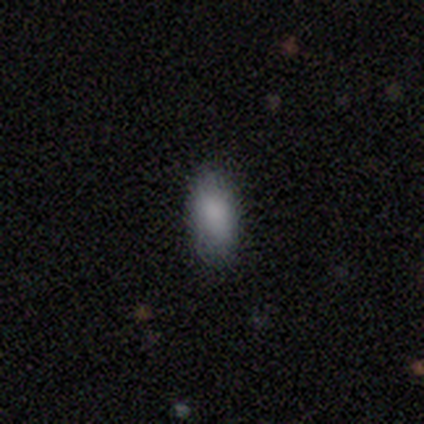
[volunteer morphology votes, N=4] smooth_or_featured: smooth (p=0.75) [alt: featured or disk p=0.25]
how_rounded: in between (p=1.00)
merging: none (p=1.00)